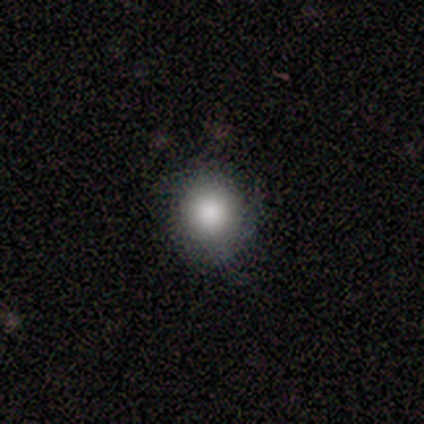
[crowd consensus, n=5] Consensus on every question: smooth or featured — smooth (100%); how rounded — round (100%); merging — none (100%).